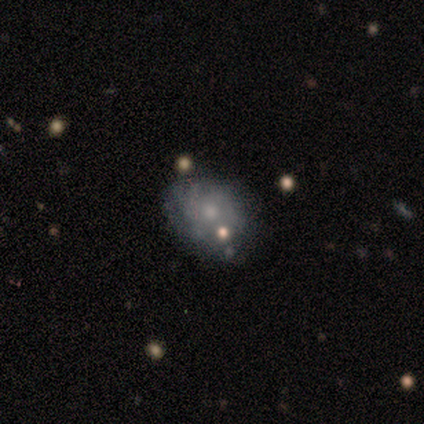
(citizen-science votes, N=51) smooth-or-featured: featured or disk: 67% | smooth: 25% | star or artifact: 8%
  disk-edge-on: no: 100% | yes: 0%
    bar: no: 94% | strong: 3% | weak: 3%
    has-spiral-arms: yes: 53% | no: 47%
      spiral-winding: tight: 56% | medium: 39% | loose: 6%
      spiral-arm-count: can't tell: 61% | 4: 17% | 2: 11% | 3: 11% | 1: 0% | more than 4: 0%
    bulge-size: small: 59% | moderate: 35% | none: 6% | dominant: 0% | large: 0%
  merging: none: 51% | minor disturbance: 32% | major disturbance: 11% | merger: 6%